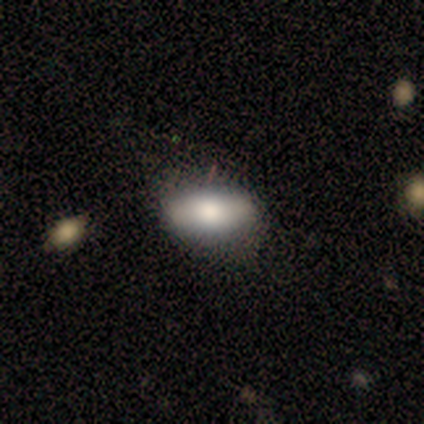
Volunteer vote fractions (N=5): Overall: smooth (80%). How rounded: in between (100%). Merging: none (100%).